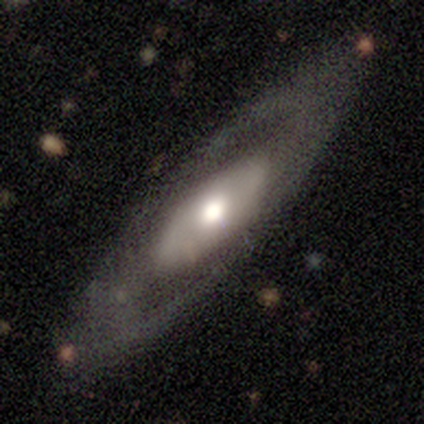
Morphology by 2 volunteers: smooth_or_featured: featured or disk (p=1.00)
disk_edge_on: yes (p=0.50) [tied with: no p=0.50]
edge_on_bulge: rounded (p=1.00)
merging: none (p=1.00)